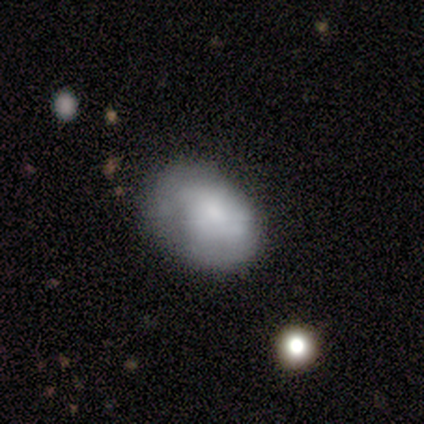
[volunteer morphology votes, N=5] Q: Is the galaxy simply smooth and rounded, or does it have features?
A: smooth — 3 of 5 (60%).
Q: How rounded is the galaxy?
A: in between — 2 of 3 (67%).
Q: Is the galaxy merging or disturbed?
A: minor disturbance — 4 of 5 (80%).